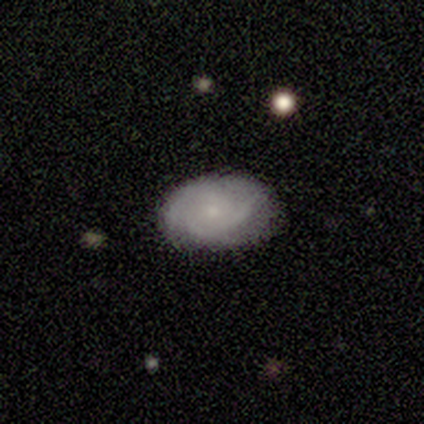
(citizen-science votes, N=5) Smooth or featured? smooth (80%)
How rounded? in between (100%)
Merging? none (100%)